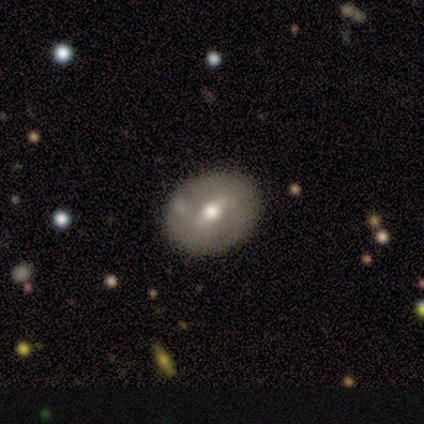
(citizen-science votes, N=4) Overall: smooth (75%). How rounded: in between (67%; round 33%). Merging: none (100%).